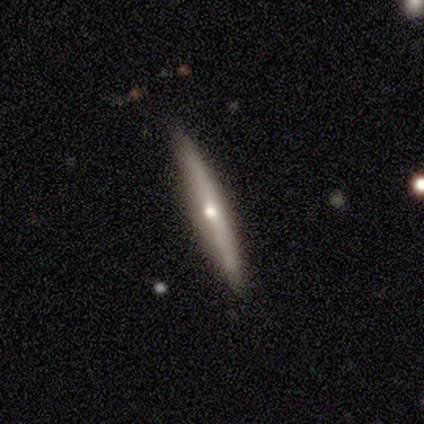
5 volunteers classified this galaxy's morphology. smooth_or_featured: featured or disk (p=0.80) [alt: smooth p=0.20]
disk_edge_on: yes (p=1.00)
edge_on_bulge: rounded (p=0.75) [alt: none p=0.25]
merging: none (p=0.80) [alt: major disturbance p=0.20]